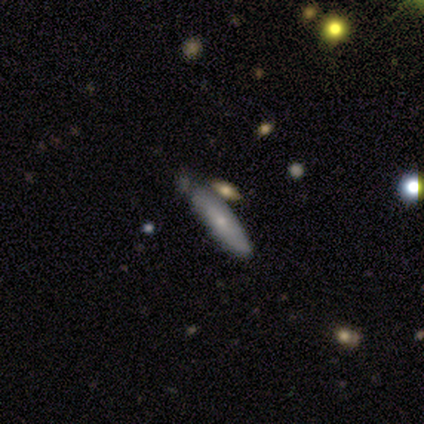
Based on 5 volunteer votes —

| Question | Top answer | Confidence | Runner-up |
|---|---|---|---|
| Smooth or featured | smooth | 80% | featured or disk (20%) |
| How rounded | cigar-shaped | 75% | in between (25%) |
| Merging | minor disturbance | 60% | none (40%) |